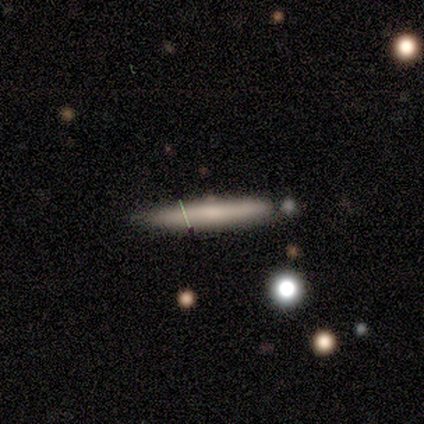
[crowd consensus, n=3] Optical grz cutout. It shows a smooth galaxy with no disk features (67%) that is cigar-shaped (100%). Merging: none (100%).